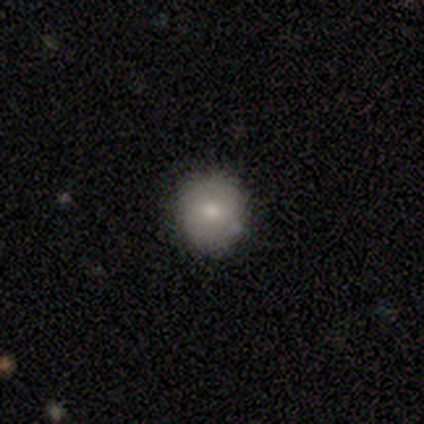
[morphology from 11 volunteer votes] type=smooth (91%); roundness=round (80%); merging=none (82%).